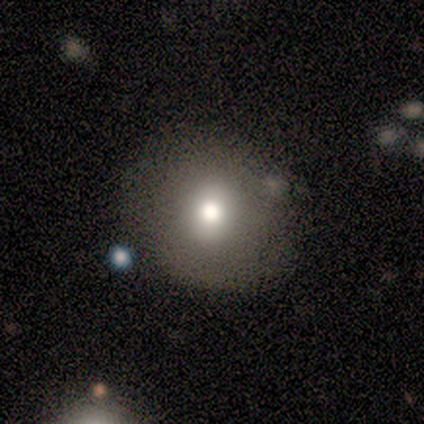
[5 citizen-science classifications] Q: Smooth or featured?
A: star or artifact (60%); runner-up: smooth (40%)